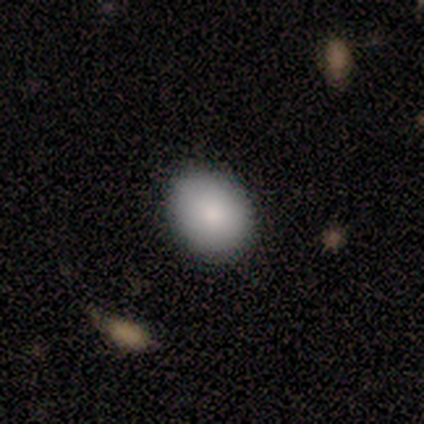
smooth-or-featured: smooth: 100% | featured or disk: 0% | star or artifact: 0%
  how-rounded: round: 80% | in between: 20% | cigar-shaped: 0%
  merging: none: 100% | minor disturbance: 0% | major disturbance: 0% | merger: 0%